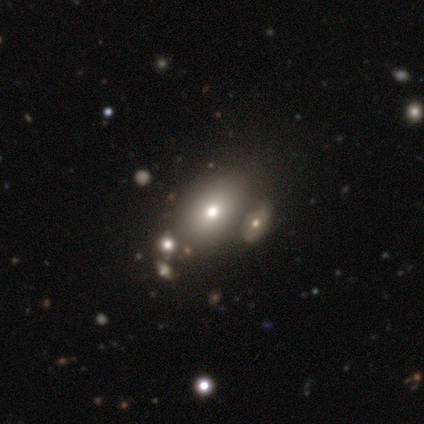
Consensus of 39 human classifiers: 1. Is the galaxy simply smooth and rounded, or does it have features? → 72% smooth, 18% featured or disk, 10% star or artifact.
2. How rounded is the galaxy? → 89% in between, 11% round, 0% cigar-shaped.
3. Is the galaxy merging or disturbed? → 54% none, 23% merger, 6% minor disturbance, 3% major disturbance.